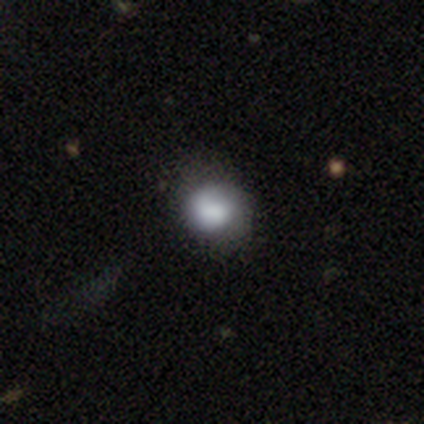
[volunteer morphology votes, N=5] Smooth or featured: smooth — 80% (featured or disk — 20%)
How rounded: round — 75% (in between — 25%)
Merging: none — 40% (tied with minor disturbance — 40%)